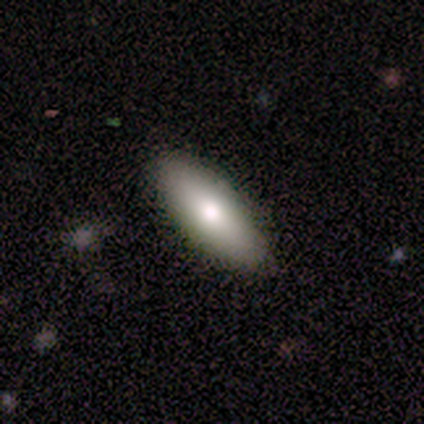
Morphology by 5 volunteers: This is likely a smooth galaxy (60%). How rounded: clearly in between (100%). Merging: clearly none (100%).